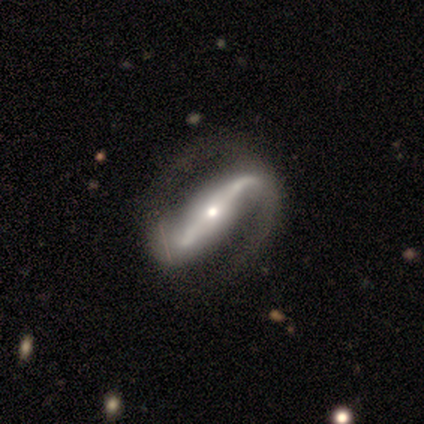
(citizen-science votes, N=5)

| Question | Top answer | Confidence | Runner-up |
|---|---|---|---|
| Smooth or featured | featured or disk | 80% | star or artifact (20%) |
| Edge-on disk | yes | 50% | tied: no (50%) |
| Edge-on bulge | rounded | 100% | — |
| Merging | none | 50% | tied: minor disturbance (50%) |